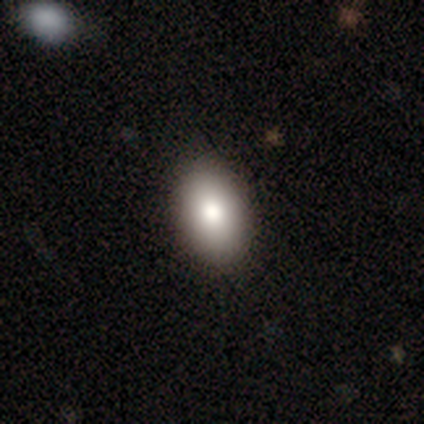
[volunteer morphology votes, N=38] Smooth or featured? smooth (84%)
How rounded? in between (91%)
Merging? none (68%)